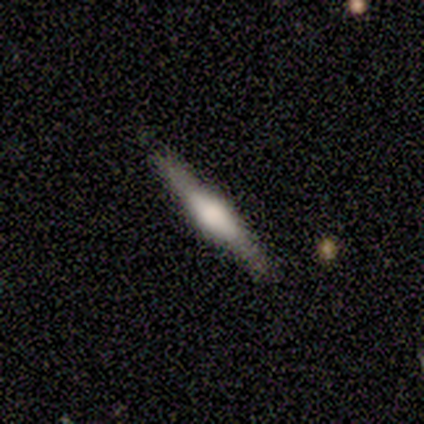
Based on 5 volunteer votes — smooth-or-featured: featured or disk: 60% | smooth: 40% | star or artifact: 0%
  disk-edge-on: yes: 100% | no: 0%
    edge-on-bulge: boxy: 100% | none: 0% | rounded: 0%
  merging: none: 80% | minor disturbance: 20% | major disturbance: 0% | merger: 0%